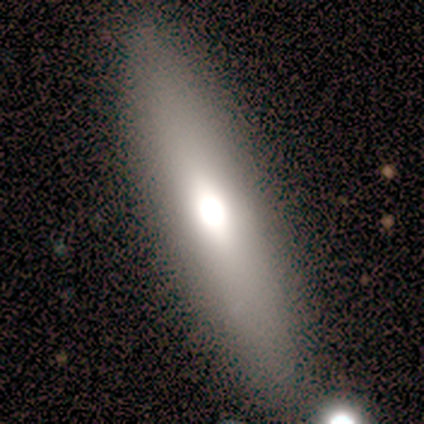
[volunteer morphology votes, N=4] Smooth or featured? 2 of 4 (50%, tied with featured or disk) said smooth. How rounded? 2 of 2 (100%) said cigar-shaped. Merging? 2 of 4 (50%) said none.